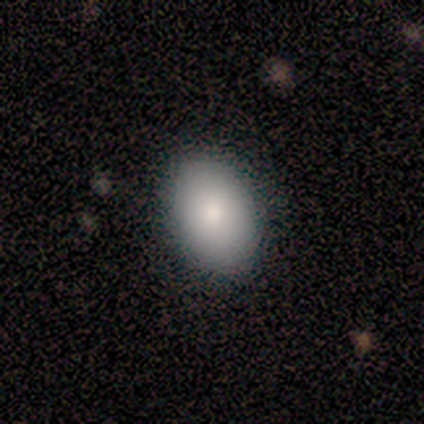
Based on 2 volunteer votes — Overall: star or artifact (100%).